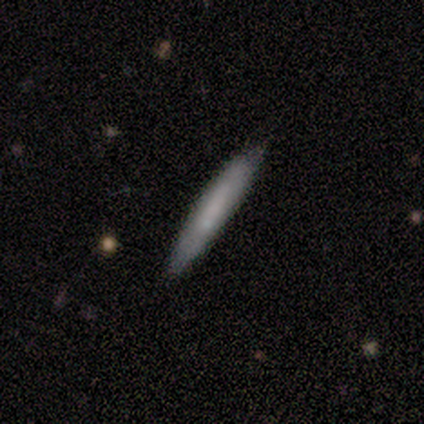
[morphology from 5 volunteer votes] A smooth galaxy with no disk features (100%) that is cigar-shaped (100%).

Vote fractions:
- Smooth or featured? smooth: 100% / featured or disk: 0% / star or artifact: 0%
- How rounded? cigar-shaped: 100% / round: 0% / in between: 0%
- Merging? none: 100% / minor disturbance: 0% / major disturbance: 0% / merger: 0%